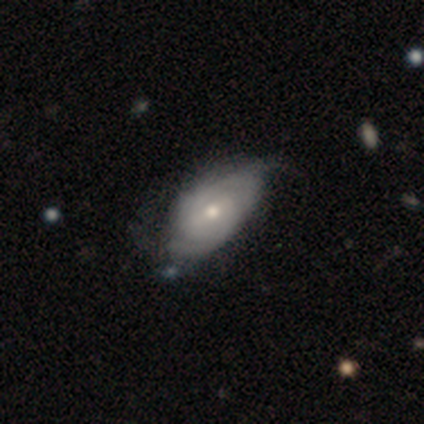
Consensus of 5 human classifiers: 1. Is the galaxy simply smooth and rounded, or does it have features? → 100% featured or disk, 0% smooth, 0% star or artifact.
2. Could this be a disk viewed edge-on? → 100% no, 0% yes.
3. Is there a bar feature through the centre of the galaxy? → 60% weak, 40% strong, 0% no.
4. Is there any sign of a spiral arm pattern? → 100% yes, 0% no.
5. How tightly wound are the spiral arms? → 60% medium, 40% tight, 0% loose.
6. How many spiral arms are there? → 40% 2, 20% 3, 20% 4, 20% can't tell, 0% 1, 0% more than 4.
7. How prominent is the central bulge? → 100% moderate, 0% dominant, 0% large, 0% small, 0% none.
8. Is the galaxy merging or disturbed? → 60% minor disturbance, 20% none, 20% major disturbance, 0% merger.